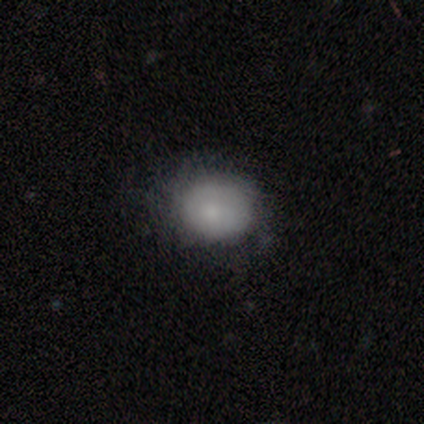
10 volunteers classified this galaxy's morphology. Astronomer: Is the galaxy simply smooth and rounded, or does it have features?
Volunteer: smooth — 60%.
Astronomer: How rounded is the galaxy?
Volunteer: round — 50%, tied with in between at 50%.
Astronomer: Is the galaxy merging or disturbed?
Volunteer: none — 62%.